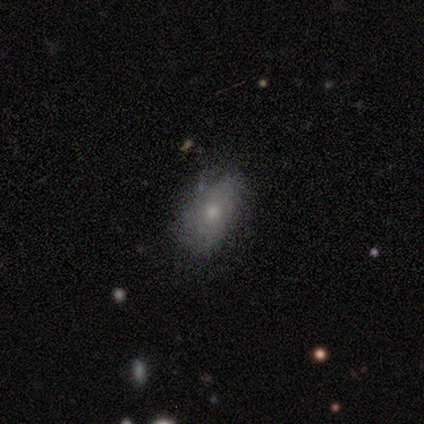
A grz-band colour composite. It shows a smooth galaxy with no disk features (53%) that is in between round and cigar-shaped (95%). Merging: none (31%).